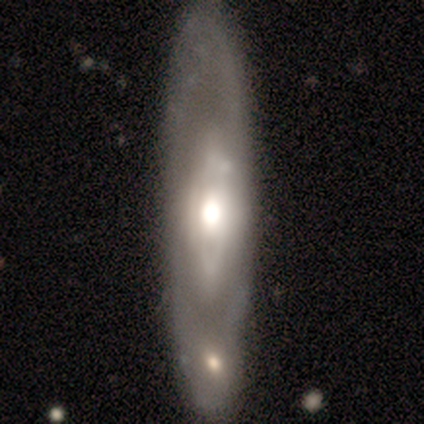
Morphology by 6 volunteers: smooth-or-featured: featured or disk: 83% | smooth: 17% | star or artifact: 0%
  disk-edge-on: no: 100% | yes: 0%
    bar: no: 80% | strong: 20% | weak: 0%
    has-spiral-arms: no: 60% | yes: 40%
    bulge-size: large: 80% | moderate: 20% | dominant: 0% | small: 0% | none: 0%
  merging: none: 50% | merger: 33% | minor disturbance: 17% | major disturbance: 0%